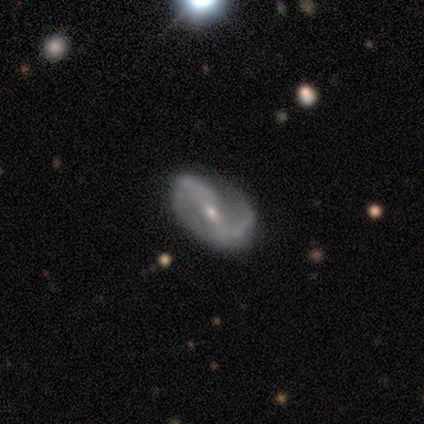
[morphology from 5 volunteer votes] Smooth or featured?
  - featured or disk: 100% *
  - smooth: 0%
  - star or artifact: 0%
Edge-on disk?
  - no: 80% *
  - yes: 20%
Bar?
  - no: 50% *
  - strong: 25%
  - weak: 25%
Spiral arms?
  - yes: 75% *
  - no: 25%
Spiral winding?
  - medium: 67% *
  - loose: 33%
  - tight: 0%
Spiral arm count?
  - 2: 100% *
  - 1: 0%
  - 3: 0%
  - 4: 0%
  - more than 4: 0%
  - can't tell: 0%
Bulge size?
  - small: 100% *
  - dominant: 0%
  - large: 0%
  - moderate: 0%
  - none: 0%
Merging?
  - minor disturbance: 60% *
  - none: 20%
  - major disturbance: 20%
  - merger: 0%